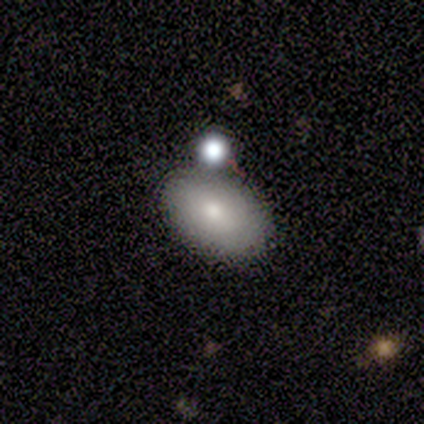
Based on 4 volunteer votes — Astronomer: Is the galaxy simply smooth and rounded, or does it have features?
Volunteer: smooth — 75%.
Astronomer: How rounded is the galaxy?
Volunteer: in between — 100%.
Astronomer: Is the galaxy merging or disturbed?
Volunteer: none — 50%, tied with merger at 50%.